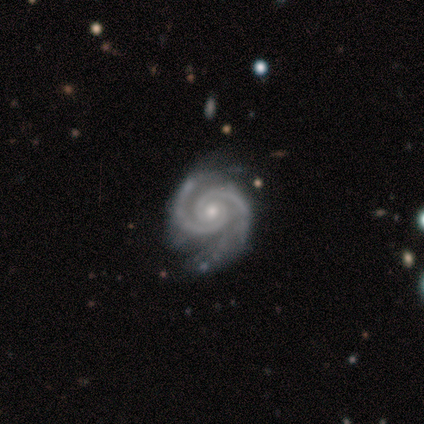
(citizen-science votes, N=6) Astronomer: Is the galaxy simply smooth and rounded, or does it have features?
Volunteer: featured or disk — 100%.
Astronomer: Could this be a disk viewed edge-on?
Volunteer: no — 100%.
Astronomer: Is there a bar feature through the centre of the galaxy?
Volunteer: no — 100%.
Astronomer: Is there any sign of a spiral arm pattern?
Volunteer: yes — 100%.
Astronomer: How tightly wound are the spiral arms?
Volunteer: tight — 67%.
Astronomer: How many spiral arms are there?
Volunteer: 2 — 100%.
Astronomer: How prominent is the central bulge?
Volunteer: small — 67%.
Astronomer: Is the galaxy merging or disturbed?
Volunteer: none — 67%.